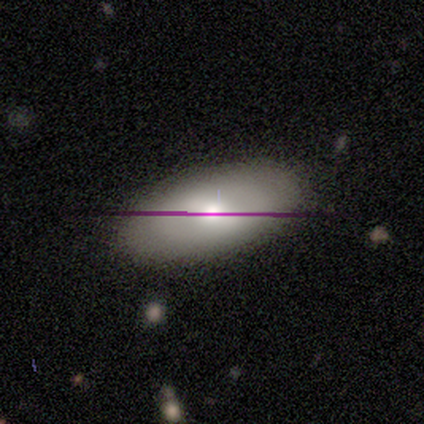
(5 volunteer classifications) Volunteers were most divided on "smooth or featured": smooth: 80%, featured or disk: 20%, star or artifact: 0%. More confident: how rounded — in between (100%); merging — none (80%).